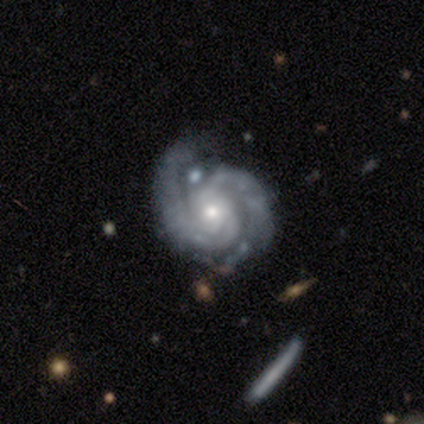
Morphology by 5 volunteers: A featured or disk galaxy (100%) with a weak bar (40%, tied with no), 2 (80%) tight (60%) spiral arms (100%) and a small central bulge (80%).

Vote fractions:
- Smooth or featured? featured or disk: 100% / smooth: 0% / star or artifact: 0%
- Edge-on disk? no: 100% / yes: 0%
- Bar? weak: 40% (tied) / no: 40% (tied) / strong: 20%
- Spiral arms? yes: 100% / no: 0%
- Spiral winding? tight: 60% / medium: 40% / loose: 0%
- Spiral arm count? 2: 80% / 4: 20% / 1: 0% / 3: 0% / more than 4: 0% / can't tell: 0%
- Bulge size? small: 80% / moderate: 20% / dominant: 0% / large: 0% / none: 0%
- Merging? none: 60% / minor disturbance: 40% / major disturbance: 0% / merger: 0%